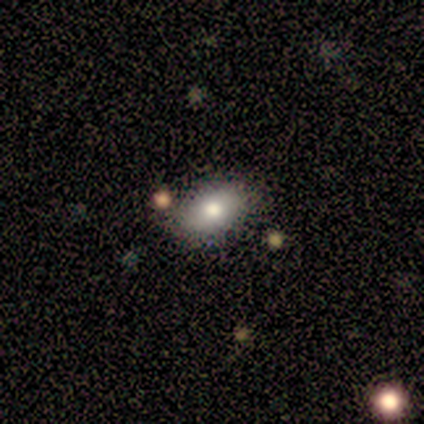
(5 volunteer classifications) A smooth galaxy with no disk features (40%, tied with featured or disk) that is in between round and cigar-shaped (100%). Merging: none (100%).